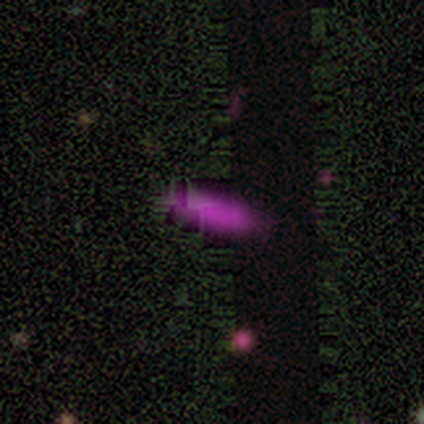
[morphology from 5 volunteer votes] This is likely a smooth galaxy (60%). How rounded: likely in between (67%). Merging: likely none (75%).